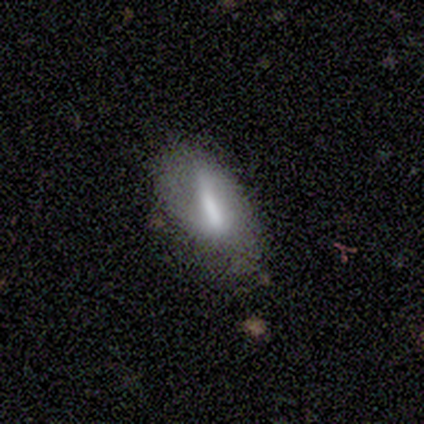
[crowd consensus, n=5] Smooth or featured? smooth (80%)
How rounded? in between (100%)
Merging? none (50%, tied with minor disturbance)